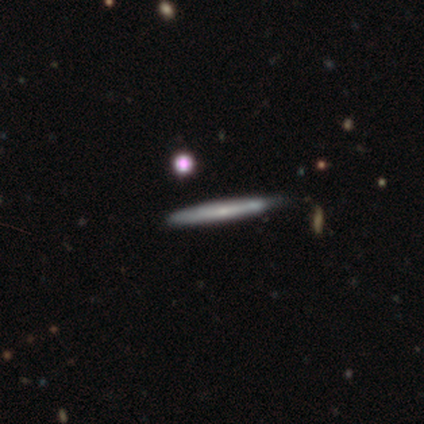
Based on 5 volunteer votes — This is marginally a smooth galaxy (40%, tied with featured or disk). How rounded: clearly cigar-shaped (100%). Merging: clearly none (100%).